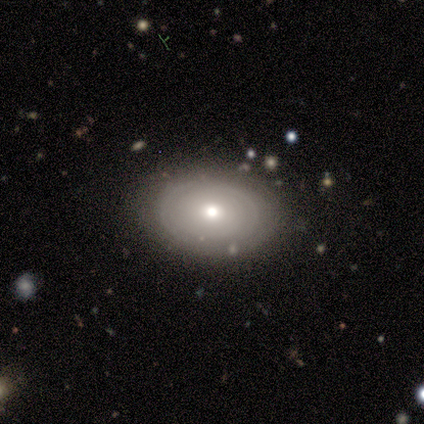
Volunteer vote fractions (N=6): Overall: smooth (50%, tied with featured or disk). How rounded: in between (100%). Merging: none (100%).